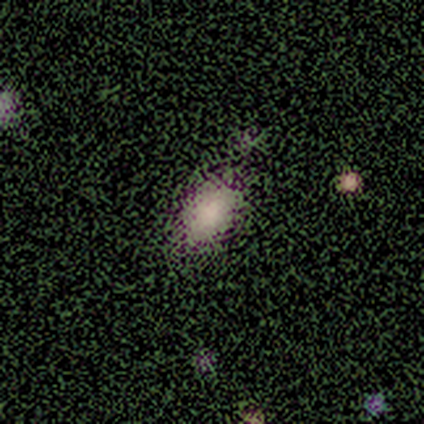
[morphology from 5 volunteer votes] Smooth or featured? 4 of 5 (80%) said smooth. How rounded? 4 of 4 (100%) said in between. Merging? 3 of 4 (75%) said none.